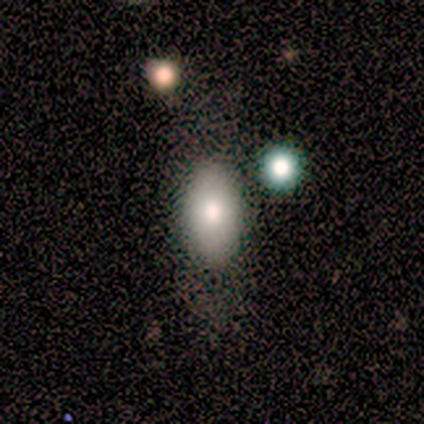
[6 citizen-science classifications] A smooth galaxy with no disk features (100%) that is in between round and cigar-shaped (83%).

Vote fractions:
- Smooth or featured? smooth: 100% / featured or disk: 0% / star or artifact: 0%
- How rounded? in between: 83% / cigar-shaped: 17% / round: 0%
- Merging? none: 100% / minor disturbance: 0% / major disturbance: 0% / merger: 0%